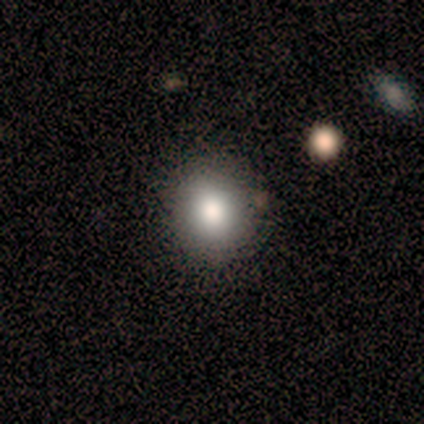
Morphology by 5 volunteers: A smooth galaxy with no disk features (80%) that is in between round and cigar-shaped (75%). Merging: none (75%).